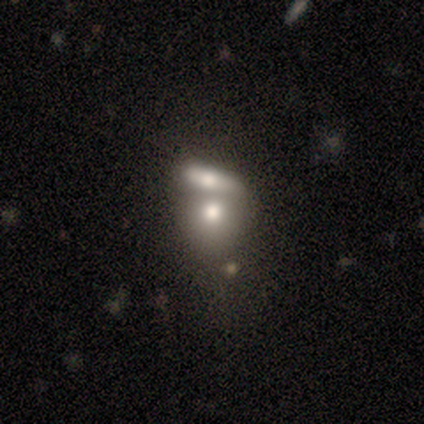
Smooth or featured?
  - smooth: 40% * (tied)
  - featured or disk: 40% * (tied)
  - star or artifact: 20%
How rounded?
  - round: 50% * (tied)
  - in between: 50% * (tied)
  - cigar-shaped: 0%
Merging?
  - merger: 75% *
  - none: 25%
  - minor disturbance: 0%
  - major disturbance: 0%